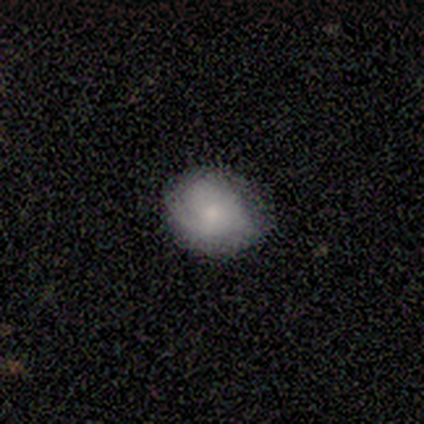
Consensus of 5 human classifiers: This appears to be a featured or disk galaxy (60%) with a weak bar (67%), 1 (100%) tight (50%, tied with loose) spiral arms (67%) and a moderate central bulge (67%). Merging: none (40%, tied with minor disturbance).